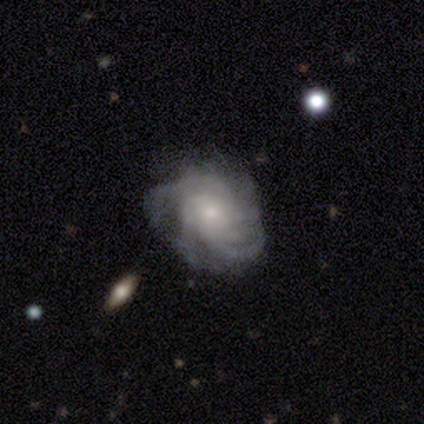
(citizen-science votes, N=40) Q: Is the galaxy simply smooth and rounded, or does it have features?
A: featured or disk — 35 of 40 (88%).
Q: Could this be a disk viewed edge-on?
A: no — 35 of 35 (100%).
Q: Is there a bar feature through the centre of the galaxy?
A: no — 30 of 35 (86%).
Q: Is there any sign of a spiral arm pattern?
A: yes — 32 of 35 (91%).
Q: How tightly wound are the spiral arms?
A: tight — 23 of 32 (72%).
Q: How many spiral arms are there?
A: more than 4 — 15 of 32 (47%).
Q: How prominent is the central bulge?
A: small — 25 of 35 (71%).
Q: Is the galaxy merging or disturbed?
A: none — 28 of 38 (74%).